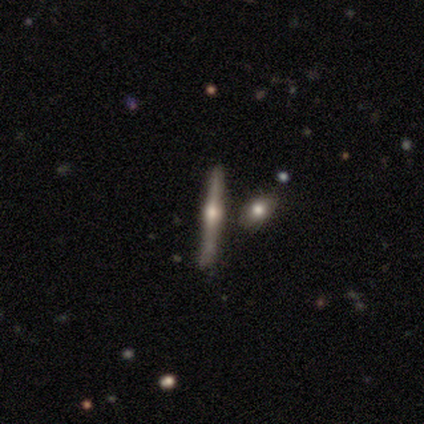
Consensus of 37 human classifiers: Volunteers were most divided on "merging": none: 59%, minor disturbance: 24%, merger: 18%, major disturbance: 0%. More confident: edge-on disk — yes (97%); edge-on bulge — rounded (97%); smooth or featured — featured or disk (84%).